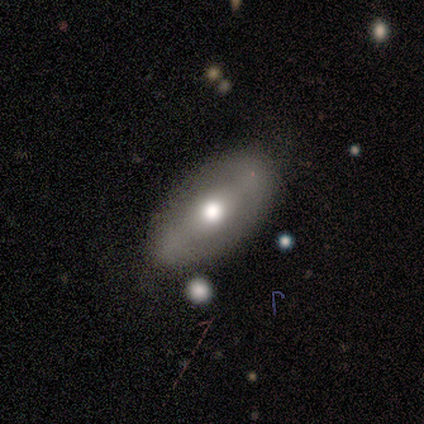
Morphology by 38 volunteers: Smooth or featured? featured or disk (58%)
Edge-on disk? no (73%)
Bar? strong (38%, tied with no)
Spiral arms? no (75%)
Bulge size? moderate (81%)
Merging? none (77%)